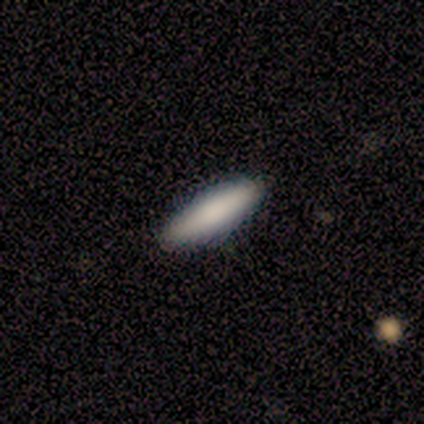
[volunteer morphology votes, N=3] A smooth galaxy with no disk features (67%) that is cigar-shaped (100%). Merging: none (100%).